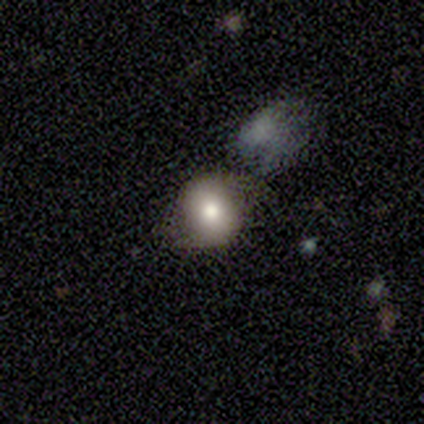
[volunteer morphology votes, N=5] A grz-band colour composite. It shows a smooth galaxy with no disk features (60%) that is round (67%). Merging: none (75%).